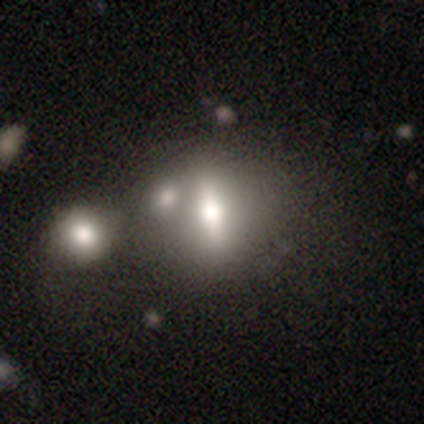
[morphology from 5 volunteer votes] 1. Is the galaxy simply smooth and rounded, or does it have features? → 60% featured or disk, 40% smooth, 0% star or artifact.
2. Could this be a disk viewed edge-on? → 100% no, 0% yes.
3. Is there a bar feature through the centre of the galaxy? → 67% strong, 33% no, 0% weak.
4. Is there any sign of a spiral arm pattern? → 100% no, 0% yes.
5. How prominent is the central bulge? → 67% large, 33% moderate, 0% dominant, 0% small, 0% none.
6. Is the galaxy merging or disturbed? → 60% none, 40% merger, 0% minor disturbance, 0% major disturbance.